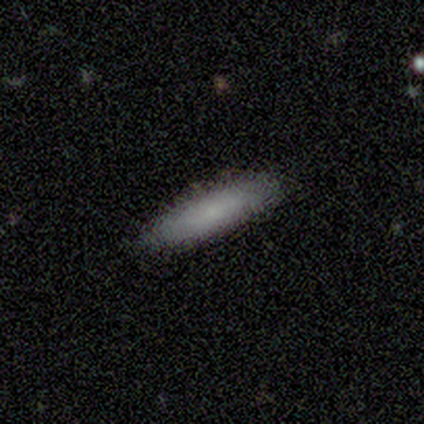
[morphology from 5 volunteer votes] Overall: smooth (80%). How rounded: cigar-shaped (75%). Merging: none (80%).